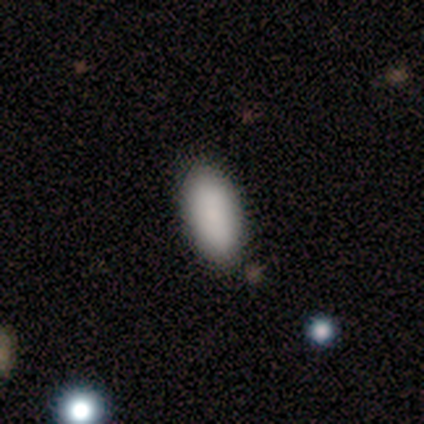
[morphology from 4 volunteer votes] Volunteers were most divided on "how rounded": in between: 75%, cigar-shaped: 25%, round: 0%. More confident: smooth or featured — smooth (100%); merging — none (75%).